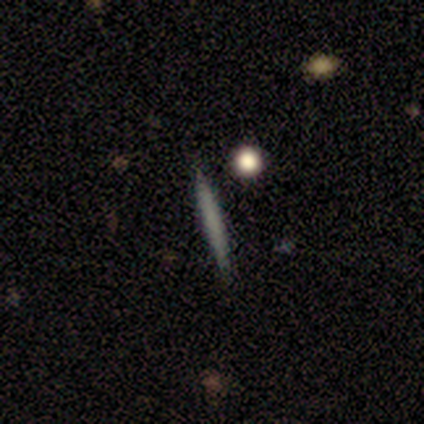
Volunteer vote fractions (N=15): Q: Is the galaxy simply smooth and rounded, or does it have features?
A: smooth — 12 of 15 (80%).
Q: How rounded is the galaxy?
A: cigar-shaped — 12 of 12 (100%).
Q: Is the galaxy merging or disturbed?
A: none — 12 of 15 (80%).